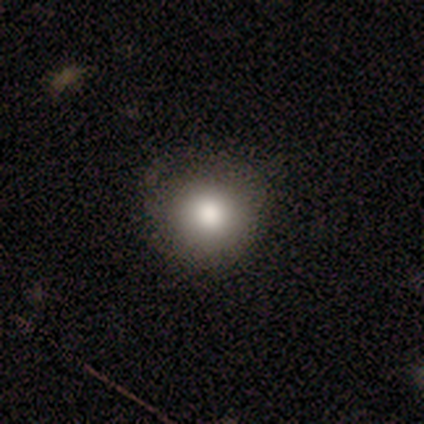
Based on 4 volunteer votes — smooth-or-featured: smooth: 100% | featured or disk: 0% | star or artifact: 0%
  how-rounded: round: 100% | in between: 0% | cigar-shaped: 0%
  merging: none: 75% | minor disturbance: 25% | major disturbance: 0% | merger: 0%